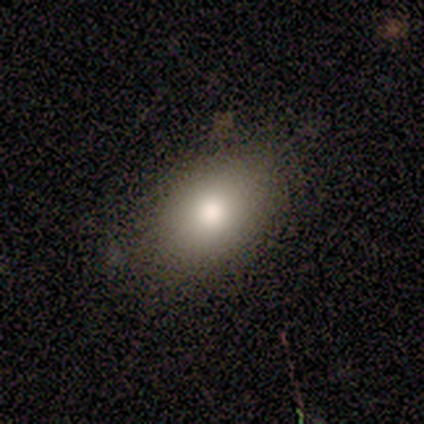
This is likely a smooth galaxy (60%). How rounded: likely in between (67%). Merging: possibly none (50%, tied with minor disturbance).